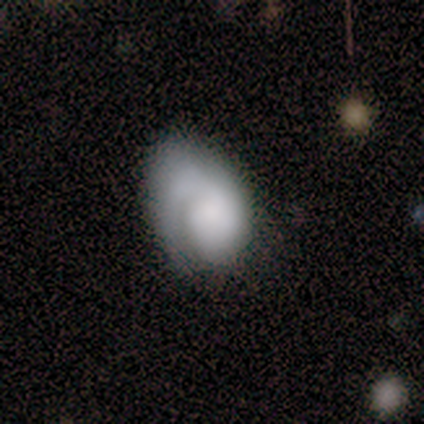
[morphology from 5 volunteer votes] This is clearly a featured or disk galaxy (100%). It is clearly not viewed edge-on (100%). Bar: clearly no (80%). Spiral arm pattern: clearly yes (100%). Spiral arm count: clearly 1 (100%). Spiral winding: clearly medium (80%). Central bulge: likely dominant (60%). Merging: likely none (60%).